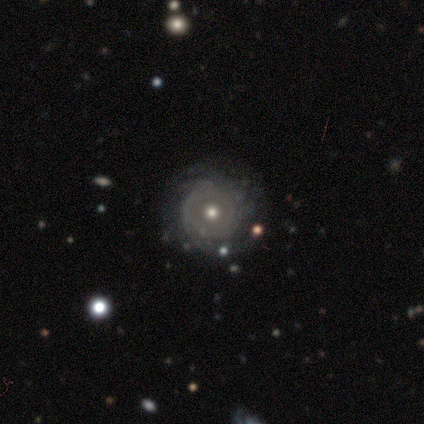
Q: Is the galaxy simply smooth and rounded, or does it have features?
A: featured or disk — 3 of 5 (60%).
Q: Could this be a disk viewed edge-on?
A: no — 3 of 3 (100%).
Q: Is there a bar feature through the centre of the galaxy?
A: no — 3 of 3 (100%).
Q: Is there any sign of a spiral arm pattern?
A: yes — 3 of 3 (100%).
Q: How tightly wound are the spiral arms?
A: tight — 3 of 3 (100%).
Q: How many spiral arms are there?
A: can't tell — 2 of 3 (67%).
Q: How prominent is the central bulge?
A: moderate — 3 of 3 (100%).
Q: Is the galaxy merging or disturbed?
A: none — 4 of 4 (100%).